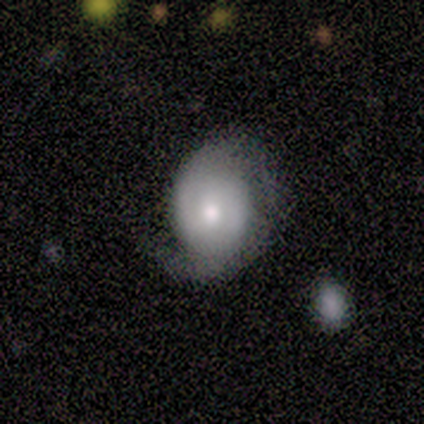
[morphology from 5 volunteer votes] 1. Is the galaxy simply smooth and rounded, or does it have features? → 80% featured or disk, 20% star or artifact, 0% smooth.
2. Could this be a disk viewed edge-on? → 100% no, 0% yes.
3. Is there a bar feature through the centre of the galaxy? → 50% no, 25% strong, 25% weak.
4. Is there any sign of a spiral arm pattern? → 75% yes, 25% no.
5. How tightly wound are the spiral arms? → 67% tight, 33% medium, 0% loose.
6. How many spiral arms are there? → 100% 2, 0% 1, 0% 3, 0% 4, 0% more than 4, 0% can't tell.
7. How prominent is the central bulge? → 50% moderate, 25% dominant, 25% small, 0% large, 0% none.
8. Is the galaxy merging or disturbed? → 75% minor disturbance, 25% major disturbance, 0% none, 0% merger.